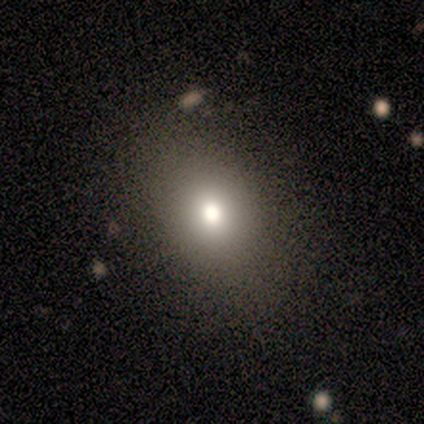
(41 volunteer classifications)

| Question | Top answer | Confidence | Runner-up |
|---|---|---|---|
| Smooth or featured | smooth | 71% | featured or disk (20%) |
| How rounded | in between | 66% | round (34%) |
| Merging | none | 97% | minor disturbance (3%) |